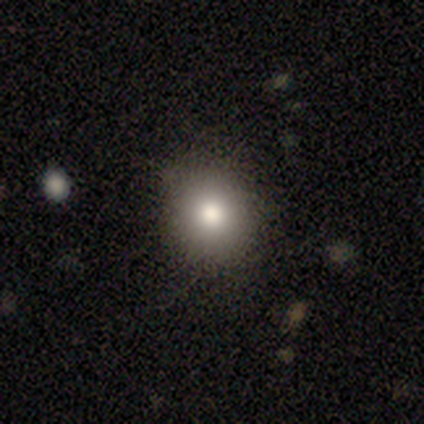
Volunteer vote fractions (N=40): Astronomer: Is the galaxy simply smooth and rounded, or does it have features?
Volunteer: smooth — 68%.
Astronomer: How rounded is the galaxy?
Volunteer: round — 89%.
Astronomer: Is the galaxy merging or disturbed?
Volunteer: none — 94%.